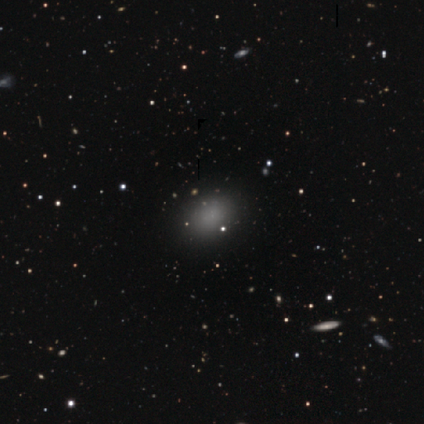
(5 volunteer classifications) Smooth or featured? smooth (80%)
How rounded? in between (75%)
Merging? none (100%)